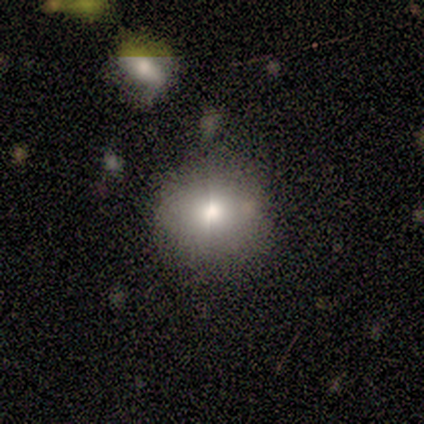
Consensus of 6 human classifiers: This appears to be a smooth galaxy with no disk features (50%) that is round (67%). Merging: none (100%).